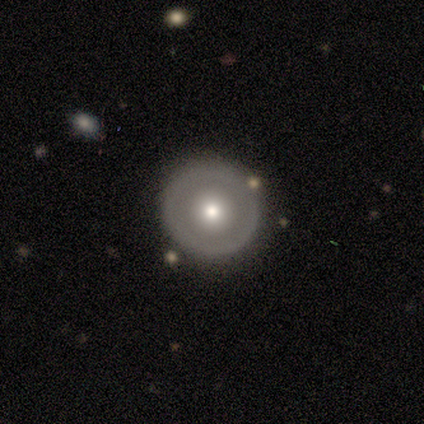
featured or disk 60%, smooth 40%, star or artifact 0%. Down the decision tree: edge-on disk — no (100%); bar — no (100%); spiral arms — no (100%); bulge size — moderate (100%); merging — none (100%).